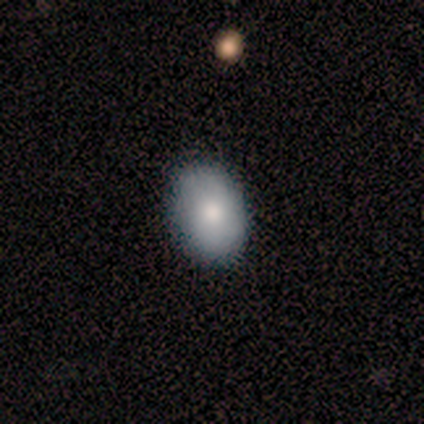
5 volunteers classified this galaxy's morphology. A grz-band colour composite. It shows a smooth galaxy with no disk features (80%) that is in between round and cigar-shaped (100%). Merging: none (100%).